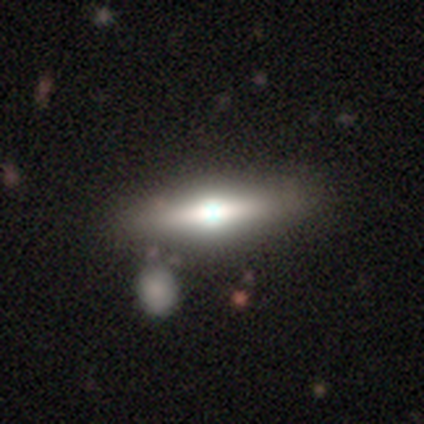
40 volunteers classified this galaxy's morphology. Volunteers were most divided on "smooth or featured": featured or disk: 60%, smooth: 40%, star or artifact: 0%. More confident: edge-on bulge — rounded (100%); edge-on disk — yes (92%); merging — none (65%).